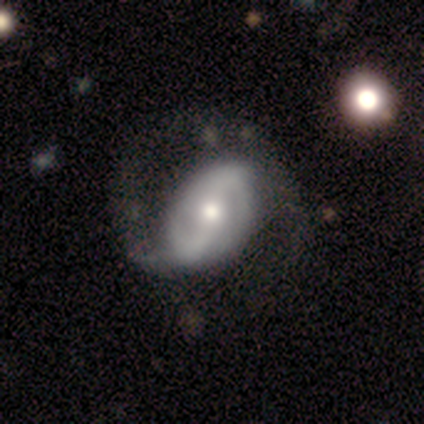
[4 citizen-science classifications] This appears to be a featured or disk galaxy (75%) with a weak bar (67%), 2 (100%) medium (67%) spiral arms (100%) and a moderate central bulge (67%). Merging: none (75%).